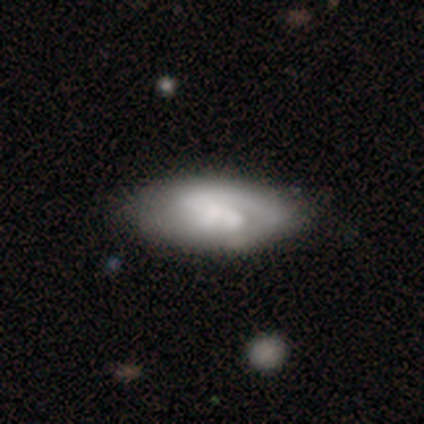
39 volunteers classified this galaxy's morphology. Smooth or featured: featured or disk — 62% (smooth — 31%)
Edge-on disk: no — 92% (yes — 8%)
Bar: weak — 41% (no — 36%)
Spiral arms: yes — 86% (no — 14%)
Spiral winding: tight — 47% (medium — 42%)
Spiral arm count: 2 — 47% (1 — 37%)
Bulge size: moderate — 41% (small — 23%)
Merging: none — 72% (minor disturbance — 25%)